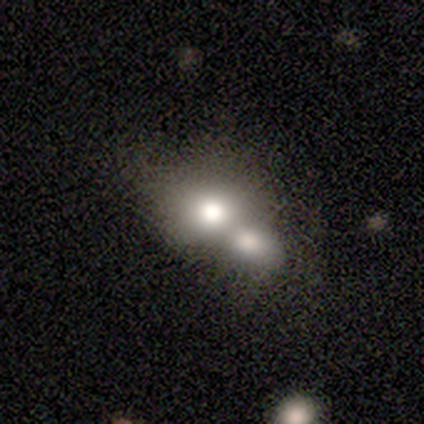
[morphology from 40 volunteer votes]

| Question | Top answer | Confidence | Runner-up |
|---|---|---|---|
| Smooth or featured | smooth | 68% | star or artifact (20%) |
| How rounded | round | 59% | in between (37%) |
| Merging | merger | 69% | none (16%) |